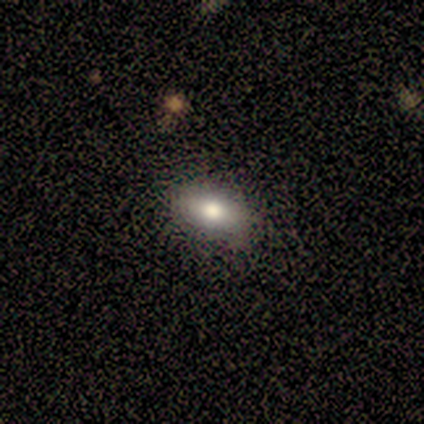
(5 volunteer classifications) smooth_or_featured: smooth (p=0.80) [alt: star or artifact p=0.20]
how_rounded: in between (p=1.00)
merging: none (p=0.75) [alt: minor disturbance p=0.25]